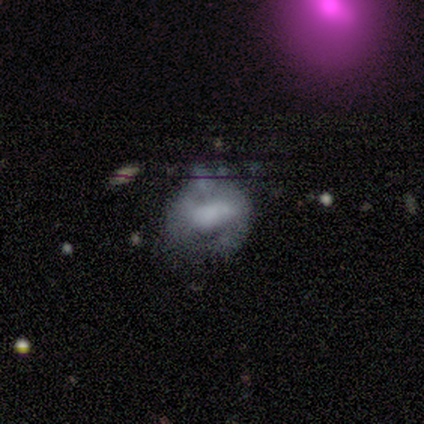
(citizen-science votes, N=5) Smooth or featured?
  - smooth: 80% *
  - star or artifact: 20%
  - featured or disk: 0%
How rounded?
  - round: 75% *
  - in between: 25%
  - cigar-shaped: 0%
Merging?
  - major disturbance: 50% *
  - none: 25%
  - minor disturbance: 25%
  - merger: 0%